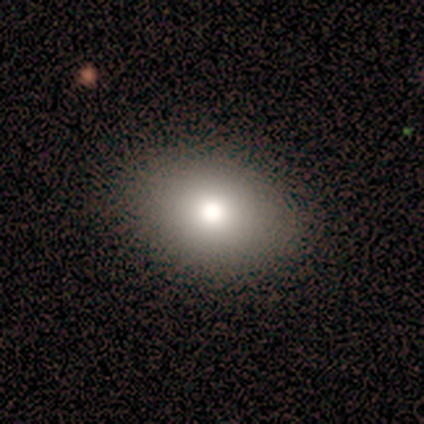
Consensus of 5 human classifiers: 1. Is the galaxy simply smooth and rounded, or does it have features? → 100% smooth, 0% featured or disk, 0% star or artifact.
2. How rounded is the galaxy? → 60% in between, 40% round, 0% cigar-shaped.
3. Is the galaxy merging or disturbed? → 100% none, 0% minor disturbance, 0% major disturbance, 0% merger.